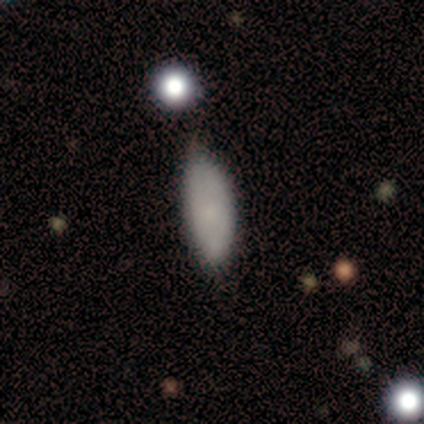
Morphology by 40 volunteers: Overall: smooth (75%). How rounded: in between (77%). Merging: minor disturbance (45%; none 42%).